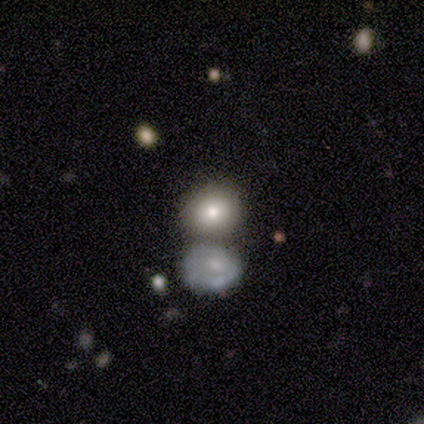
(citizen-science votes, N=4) Q: Smooth or featured?
A: smooth (100%)
Q: How rounded?
A: round (75%); runner-up: in between (25%)
Q: Merging?
A: none (75%); runner-up: major disturbance (25%)